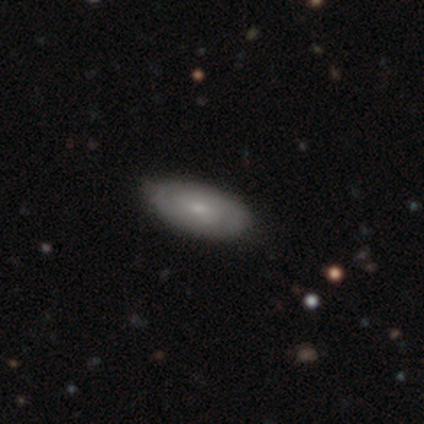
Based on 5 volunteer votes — smooth_or_featured: featured or disk (p=0.60) [alt: smooth p=0.40]
disk_edge_on: no (p=1.00)
bar: no (p=1.00)
has_spiral_arms: no (p=0.67) [alt: yes p=0.33]
bulge_size: small (p=0.67) [alt: moderate p=0.33]
merging: none (p=0.80) [alt: minor disturbance p=0.20]